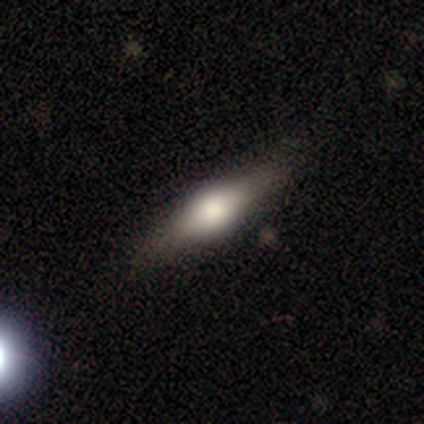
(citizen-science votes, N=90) This is possibly a smooth galaxy (52%). How rounded: possibly in between (60%). Merging: likely none (79%).